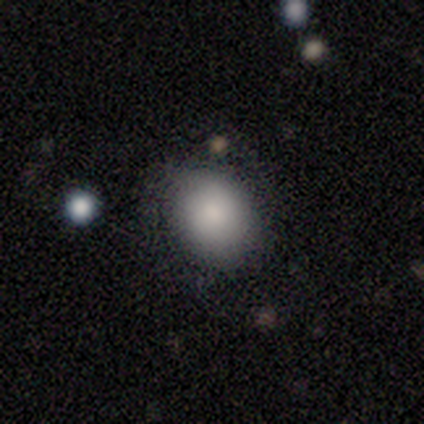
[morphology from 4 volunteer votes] Smooth or featured?
  - smooth: 75% *
  - star or artifact: 25%
  - featured or disk: 0%
How rounded?
  - in between: 67% *
  - round: 33%
  - cigar-shaped: 0%
Merging?
  - none: 100% *
  - minor disturbance: 0%
  - major disturbance: 0%
  - merger: 0%